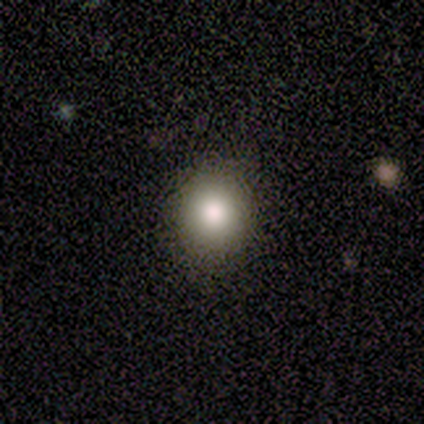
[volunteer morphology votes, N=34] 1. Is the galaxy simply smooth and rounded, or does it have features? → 82% smooth, 12% star or artifact, 6% featured or disk.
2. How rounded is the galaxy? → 82% round, 18% in between, 0% cigar-shaped.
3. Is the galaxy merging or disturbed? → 97% none, 3% minor disturbance, 0% major disturbance, 0% merger.